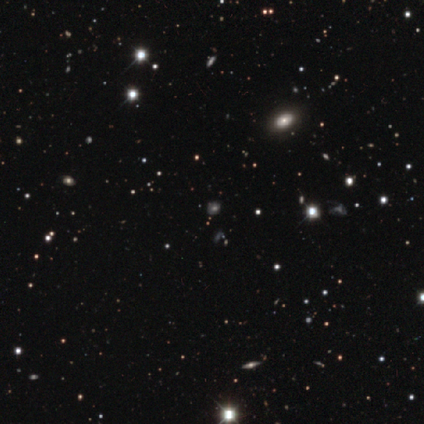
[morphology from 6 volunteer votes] This appears to be a smooth galaxy with no disk features (67%) that is round (75%). Merging: none (100%).